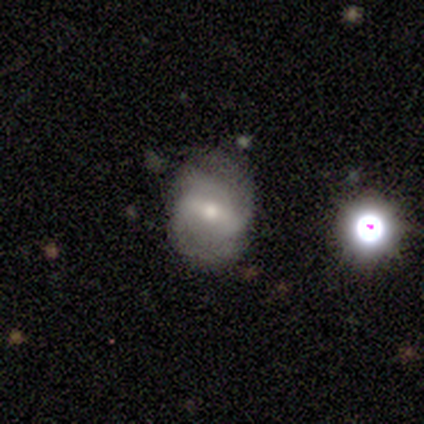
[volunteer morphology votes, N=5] smooth 40% (tied), featured or disk 40% (tied), star or artifact 20%. Down the decision tree: how rounded — round (100%); merging — none (75%).